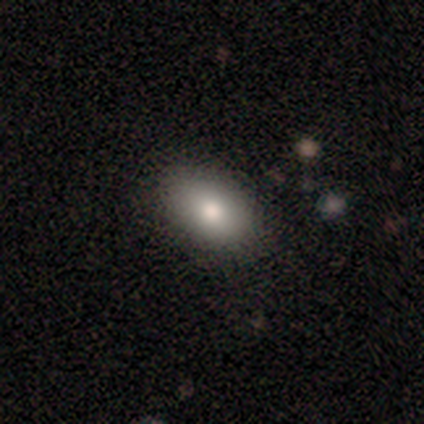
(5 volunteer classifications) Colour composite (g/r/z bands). It shows a smooth galaxy with no disk features (100%) that is in between round and cigar-shaped (100%). Merging: none (80%).